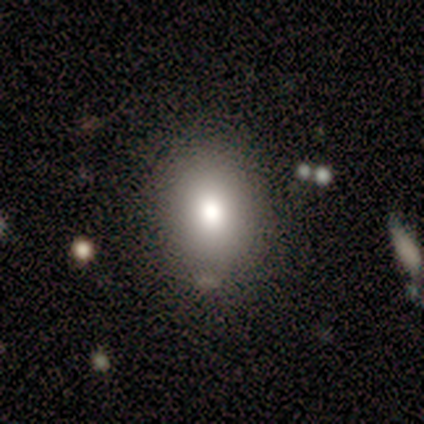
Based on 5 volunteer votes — A smooth galaxy with no disk features (80%) that is round (50%, tied with in between). Merging: none (100%).